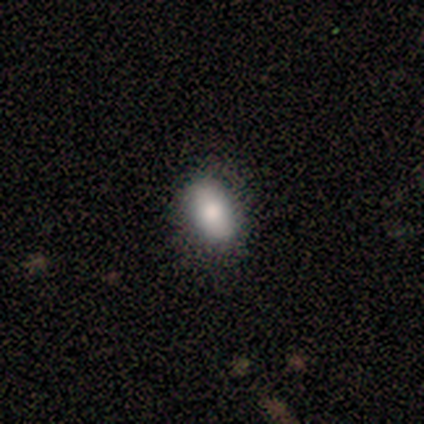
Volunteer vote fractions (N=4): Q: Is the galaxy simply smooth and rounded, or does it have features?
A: smooth — 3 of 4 (75%).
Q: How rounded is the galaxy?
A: in between — 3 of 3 (100%).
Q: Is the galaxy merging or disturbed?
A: none — 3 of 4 (75%).